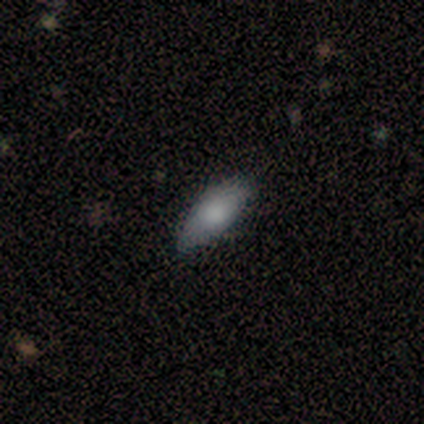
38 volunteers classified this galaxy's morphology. A smooth galaxy with no disk features (71%) that is in between round and cigar-shaped (74%). Merging: none (88%).